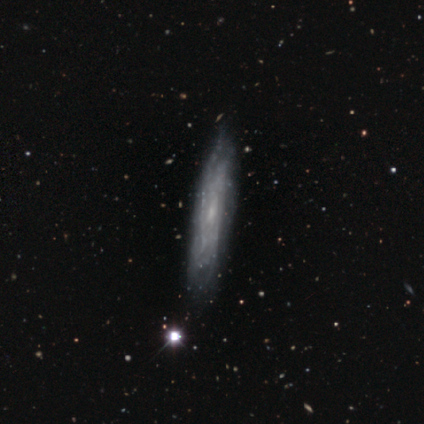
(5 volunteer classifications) This is clearly a featured or disk galaxy (100%). It is likely not viewed edge-on (60%). Bar: likely weak (67%). Spiral arm pattern: likely yes (67%). Spiral arm count: clearly can't tell (100%). Spiral winding: clearly tight (100%). Central bulge: likely small (67%). Merging: likely none (60%).